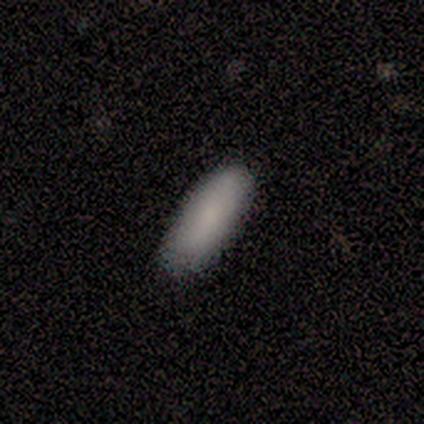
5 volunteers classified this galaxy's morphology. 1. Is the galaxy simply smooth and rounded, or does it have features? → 60% smooth, 40% star or artifact, 0% featured or disk.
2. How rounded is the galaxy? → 100% in between, 0% round, 0% cigar-shaped.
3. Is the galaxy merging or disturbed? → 100% none, 0% minor disturbance, 0% major disturbance, 0% merger.